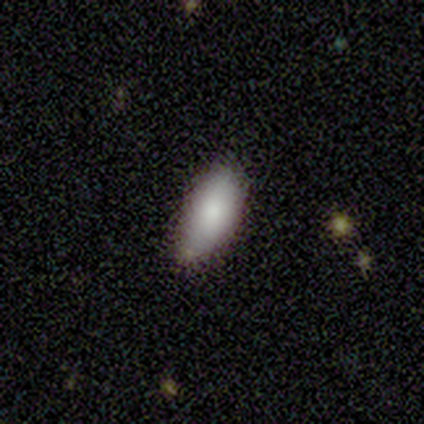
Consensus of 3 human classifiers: smooth 67%, featured or disk 33%, star or artifact 0%. Down the decision tree: how rounded — in between (100%); merging — none (100%).